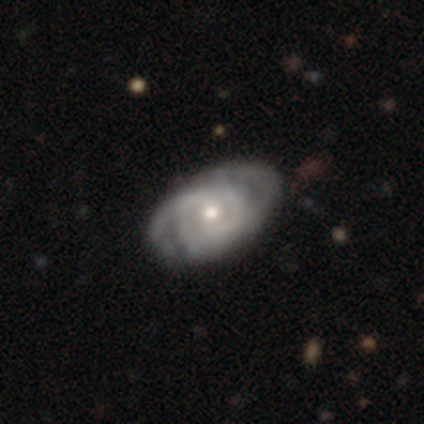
A featured or disk galaxy (89%) with no bar (82%), 2 (48%) tight (55%) spiral arms (91%) and a moderate central bulge (56%).

Vote fractions:
- Smooth or featured? featured or disk: 89% / smooth: 11% / star or artifact: 0%
- Edge-on disk? no: 100% / yes: 0%
- Bar? no: 82% / weak: 18% / strong: 0%
- Spiral arms? yes: 91% / no: 9%
- Spiral winding? tight: 55% / medium: 42% / loose: 3%
- Spiral arm count? 2: 48% / can't tell: 29% / 3: 19% / 4: 3% / 1: 0% / more than 4: 0%
- Bulge size? moderate: 56% / small: 32% / large: 9% / none: 3% / dominant: 0%
- Merging? none: 39% / minor disturbance: 16% / major disturbance: 13% / merger: 3%